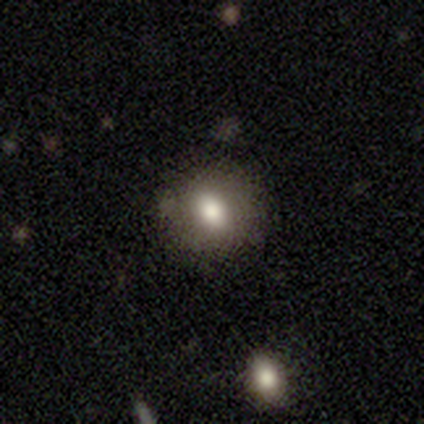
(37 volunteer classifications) Smooth or featured: smooth — 76% (featured or disk — 14%)
How rounded: round — 68% (in between — 32%)
Merging: none — 79% (minor disturbance — 18%)